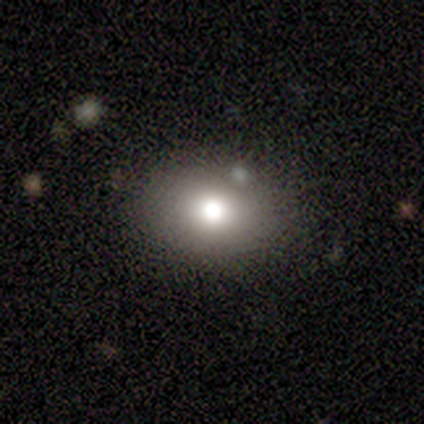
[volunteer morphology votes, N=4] smooth 50%, featured or disk 25%, star or artifact 25%. Down the decision tree: how rounded — in between (100%); merging — none (100%).